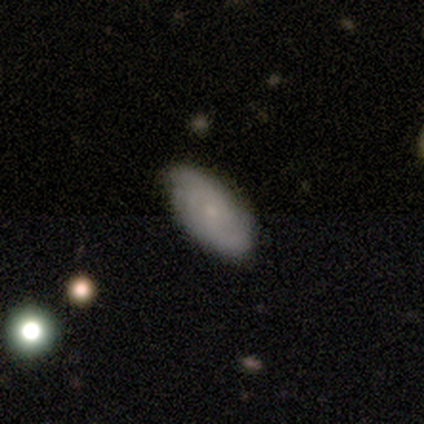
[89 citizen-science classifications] Smooth or featured: smooth — 54% (featured or disk — 37%)
How rounded: in between — 92% (round — 4%)
Merging: none — 77% (minor disturbance — 19%)